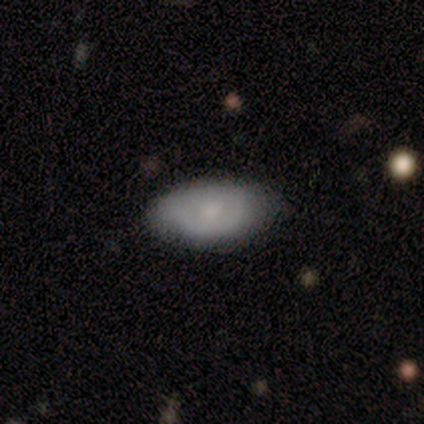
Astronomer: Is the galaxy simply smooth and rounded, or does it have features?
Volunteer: smooth — 100%.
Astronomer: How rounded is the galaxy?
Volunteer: in between — 100%.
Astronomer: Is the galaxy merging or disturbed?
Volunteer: none — 83%.